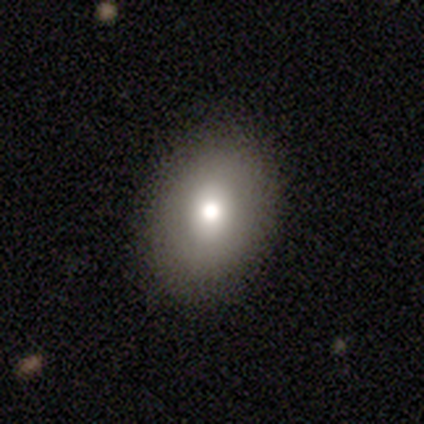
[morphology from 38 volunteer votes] A smooth galaxy with no disk features (61%) that is in between round and cigar-shaped (74%).

Vote fractions:
- Smooth or featured? smooth: 61% / star or artifact: 32% / featured or disk: 8%
- How rounded? in between: 74% / round: 26% / cigar-shaped: 0%
- Merging? none: 92% / minor disturbance: 4% / major disturbance: 4% / merger: 0%